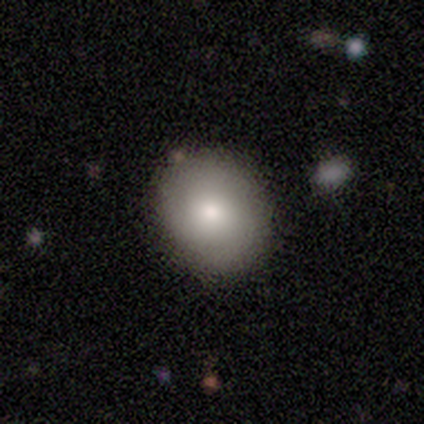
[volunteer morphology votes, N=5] Smooth or featured: smooth — 80% (featured or disk — 20%)
How rounded: in between — 75% (round — 25%)
Merging: none — 80% (minor disturbance — 20%)